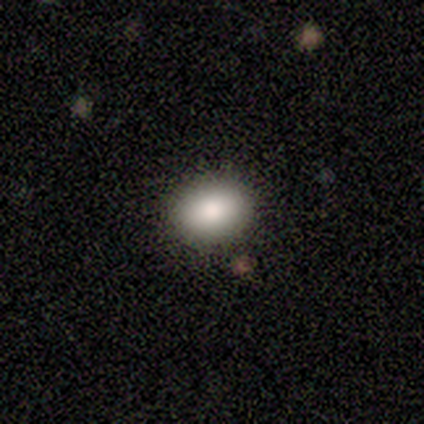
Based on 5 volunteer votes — smooth-or-featured: smooth: 80% | star or artifact: 20% | featured or disk: 0%
  how-rounded: round: 50% (tied) | in between: 50% (tied) | cigar-shaped: 0%
  merging: none: 100% | minor disturbance: 0% | major disturbance: 0% | merger: 0%